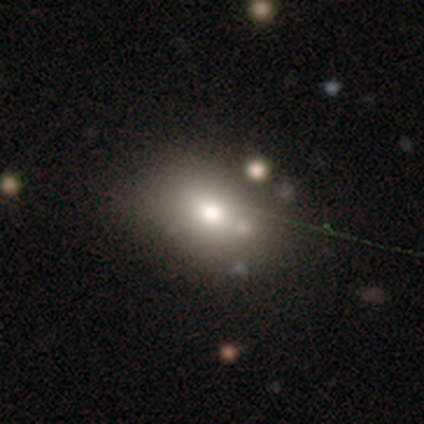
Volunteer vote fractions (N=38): Volunteers were most divided on "how rounded": in between: 65%, round: 35%, cigar-shaped: 0%. More confident: merging — none (67%); smooth or featured — smooth (61%).